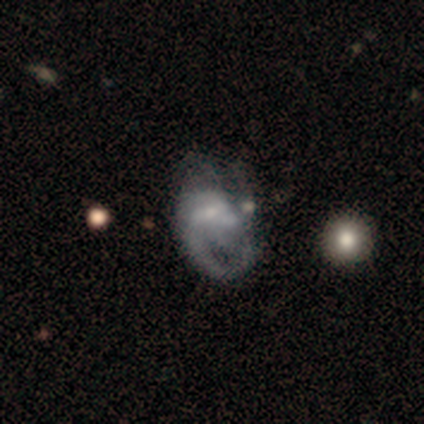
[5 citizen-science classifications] Morphology: type=featured or disk (100%); edge-on=no (100%); bar=no (60%); spiral arms=yes (60%); winding=tight (33%, tied with medium and loose); arm count=3 (67%); bulge=none (60%); merging=major disturbance (40%, tied with merger).